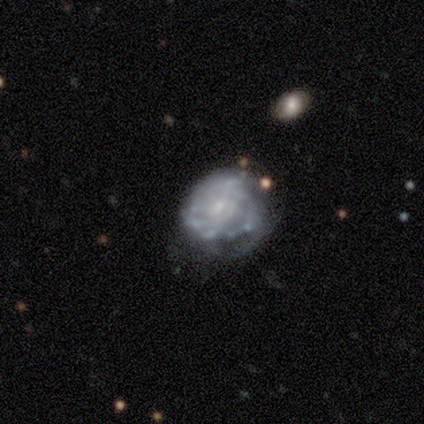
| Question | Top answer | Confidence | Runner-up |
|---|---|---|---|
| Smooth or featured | featured or disk | 90% | star or artifact (10%) |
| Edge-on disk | no | 100% | — |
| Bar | no | 78% | strong (11%) |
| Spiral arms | yes | 56% | no (44%) |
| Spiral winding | tight | 100% | — |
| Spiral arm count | can't tell | 60% | 4 (20%) |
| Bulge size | small | 67% | none (22%) |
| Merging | minor disturbance | 56% | none (44%) |